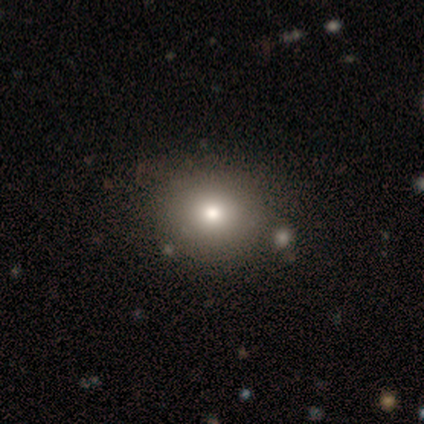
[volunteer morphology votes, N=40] A smooth galaxy with no disk features (57%) that is round (65%). Merging: none (86%).